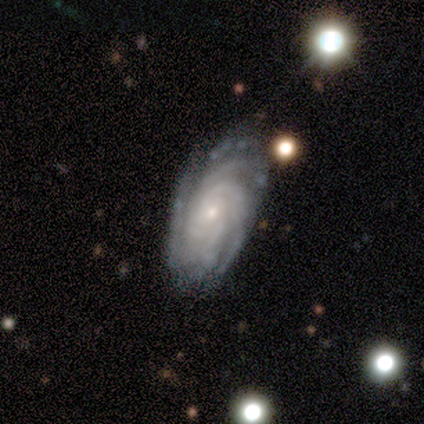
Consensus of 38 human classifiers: A featured or disk galaxy (89%) with no bar (82%), 4 (39%) tight (79%) spiral arms (100%) and a small central bulge (79%).

Vote fractions:
- Smooth or featured? featured or disk: 89% / smooth: 5% / star or artifact: 5%
- Edge-on disk? no: 97% / yes: 3%
- Bar? no: 82% / weak: 12% / strong: 6%
- Spiral arms? yes: 100% / no: 0%
- Spiral winding? tight: 79% / medium: 21% / loose: 0%
- Spiral arm count? 4: 39% / 3: 33% / can't tell: 18% / more than 4: 9% / 1: 0% / 2: 0%
- Bulge size? small: 79% / moderate: 12% / large: 6% / none: 3% / dominant: 0%
- Merging? none: 81% / minor disturbance: 17% / major disturbance: 3% / merger: 0%